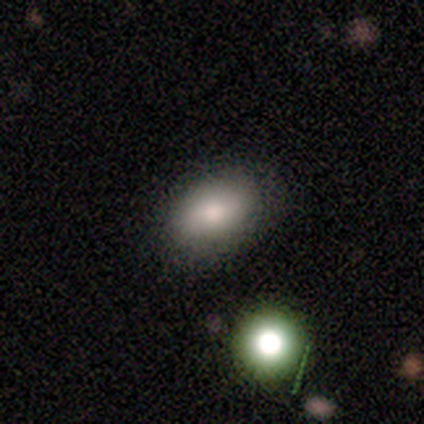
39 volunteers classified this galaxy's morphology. type=smooth (69%); roundness=in between (93%); merging=none (53%).